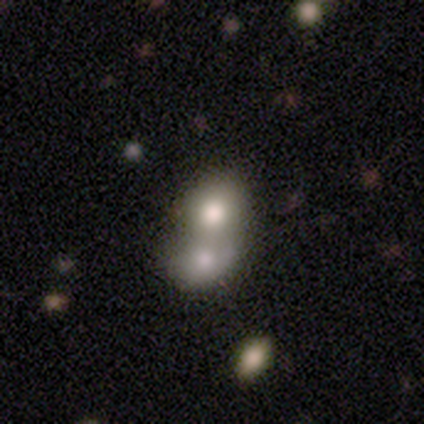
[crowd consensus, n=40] A smooth galaxy with no disk features (70%) that is round (68%). Merging: merger (76%).